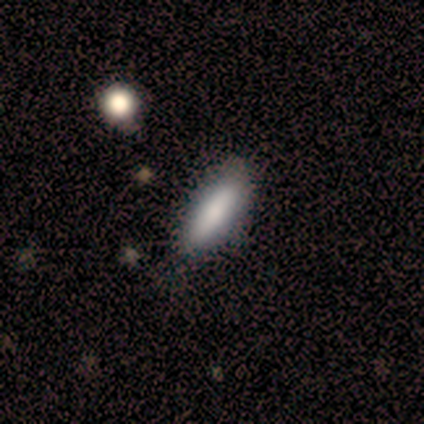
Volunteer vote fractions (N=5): Smooth or featured? 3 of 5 (60%) said smooth. How rounded? 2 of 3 (67%) said cigar-shaped. Merging? 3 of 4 (75%) said none.